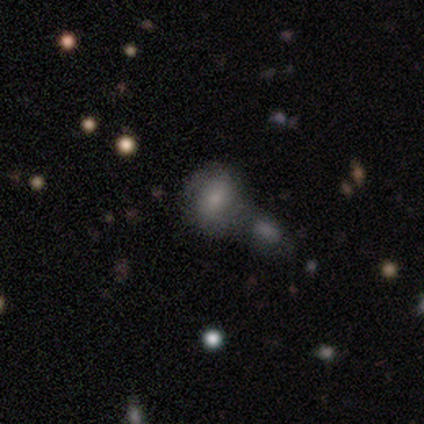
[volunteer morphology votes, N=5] This is marginally a smooth galaxy (40%, tied with star or artifact). How rounded: possibly round (50%, tied with in between). Merging: likely merger (67%).